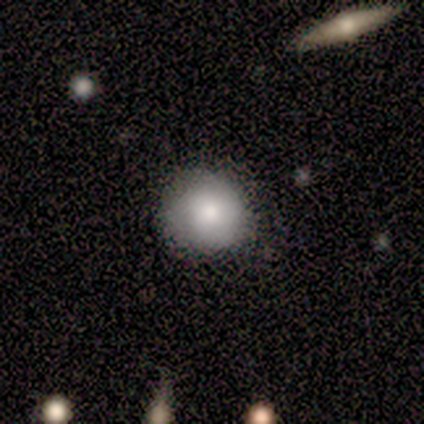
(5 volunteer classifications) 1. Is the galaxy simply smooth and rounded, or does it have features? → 80% smooth, 20% featured or disk, 0% star or artifact.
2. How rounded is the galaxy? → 75% round, 25% in between, 0% cigar-shaped.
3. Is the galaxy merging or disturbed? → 60% none, 20% minor disturbance, 20% merger, 0% major disturbance.